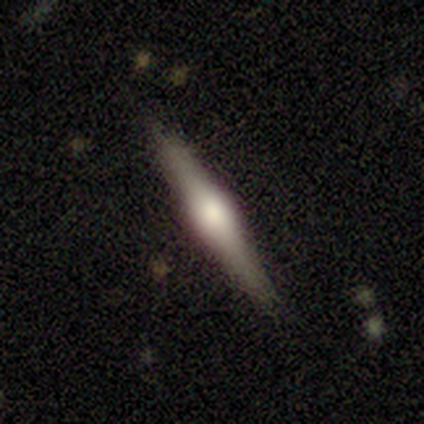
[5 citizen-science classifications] This appears to be a featured or disk galaxy (100%) viewed edge-on (100%) with a rounded central bulge (100%). Merging: none (100%).